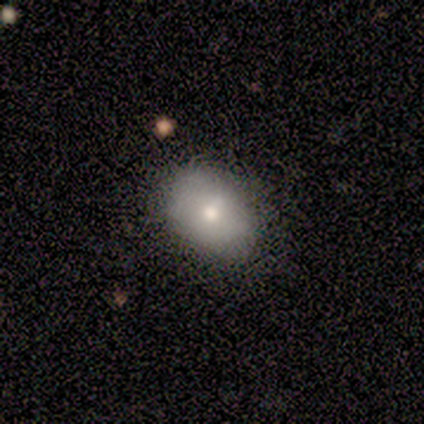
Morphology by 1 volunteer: Smooth or featured?
  - smooth: 100% *
  - featured or disk: 0%
  - star or artifact: 0%
How rounded?
  - in between: 100% *
  - round: 0%
  - cigar-shaped: 0%
Merging?
  - minor disturbance: 100% *
  - none: 0%
  - major disturbance: 0%
  - merger: 0%